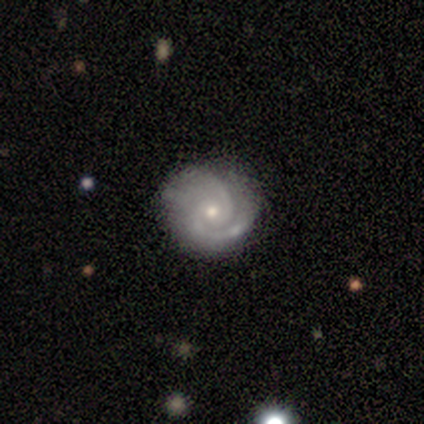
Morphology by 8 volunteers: smooth_or_featured: featured or disk (p=0.88) [alt: smooth p=0.12]
disk_edge_on: no (p=1.00)
bar: no (p=0.71) [alt: strong p=0.14]
has_spiral_arms: yes (p=1.00)
spiral_winding: tight (p=0.71) [alt: medium p=0.14]
spiral_arm_count: 2 (p=0.86) [alt: 1 p=0.14]
bulge_size: small (p=0.71) [alt: moderate p=0.29]
merging: none (p=0.62) [alt: minor disturbance p=0.38]